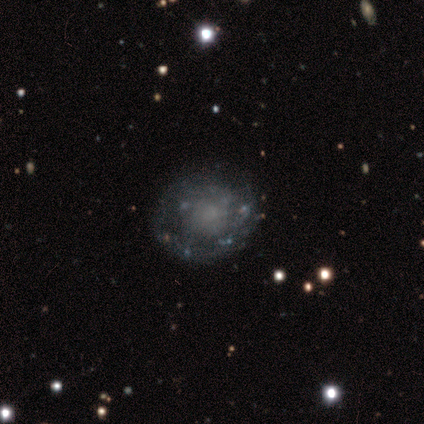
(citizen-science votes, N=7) Smooth or featured? 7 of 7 (100%) said featured or disk. Edge-on disk? 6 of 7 (86%) said no. Bar? 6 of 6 (100%) said no. Spiral arms? 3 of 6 (50%, tied with no) said yes. Spiral winding? 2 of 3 (67%) said tight. Spiral arm count? 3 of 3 (100%) said can't tell. Bulge size? 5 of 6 (83%) said none. Merging? 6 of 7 (86%) said none.